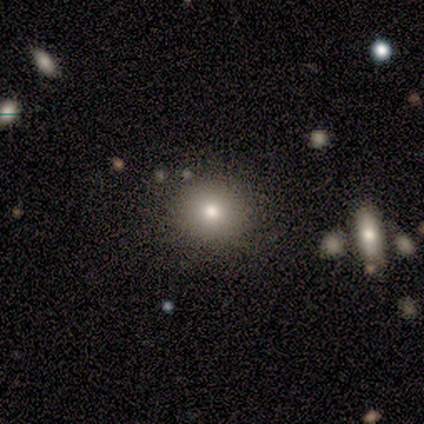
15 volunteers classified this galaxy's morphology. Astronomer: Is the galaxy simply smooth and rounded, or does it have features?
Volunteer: smooth — 80%.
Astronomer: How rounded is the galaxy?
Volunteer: round — 83%.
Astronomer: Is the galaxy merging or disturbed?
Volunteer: none — 79%.